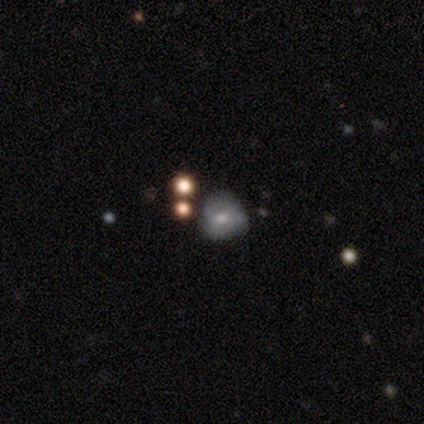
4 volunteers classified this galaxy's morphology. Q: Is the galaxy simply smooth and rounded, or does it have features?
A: smooth — 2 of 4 (50%, tied with featured or disk).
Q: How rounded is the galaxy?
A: round — 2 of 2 (100%).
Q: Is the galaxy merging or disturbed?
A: none — 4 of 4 (100%).